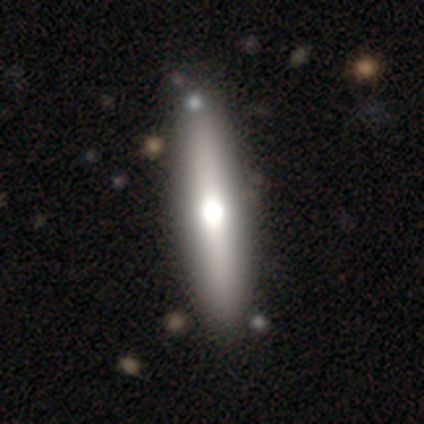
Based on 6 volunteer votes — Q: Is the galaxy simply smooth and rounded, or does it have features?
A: smooth — 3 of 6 (50%).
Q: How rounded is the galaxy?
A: cigar-shaped — 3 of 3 (100%).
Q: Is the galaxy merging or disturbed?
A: none — 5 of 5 (100%).